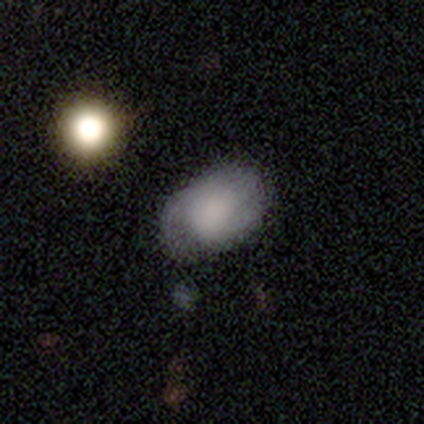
smooth 60%, featured or disk 32%, star or artifact 8%. Down the decision tree: how rounded — in between (100%); merging — none (35%).